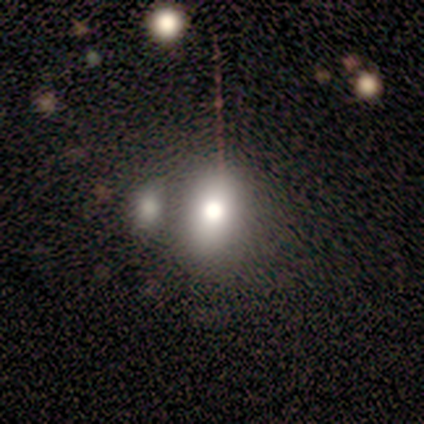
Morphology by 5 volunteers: A smooth galaxy with no disk features (100%) that is in between round and cigar-shaped (60%). Merging: merger (60%).